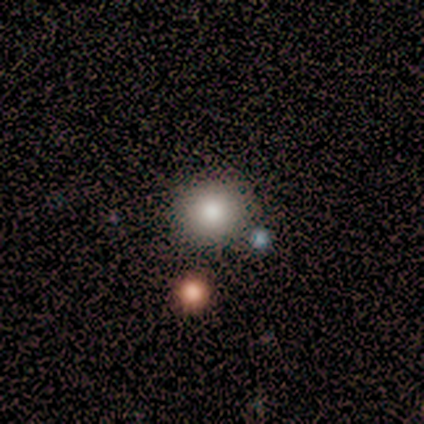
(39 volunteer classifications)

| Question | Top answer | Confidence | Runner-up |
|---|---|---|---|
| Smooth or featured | smooth | 82% | star or artifact (18%) |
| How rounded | round | 88% | in between (12%) |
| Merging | none | 69% | merger (9%) |